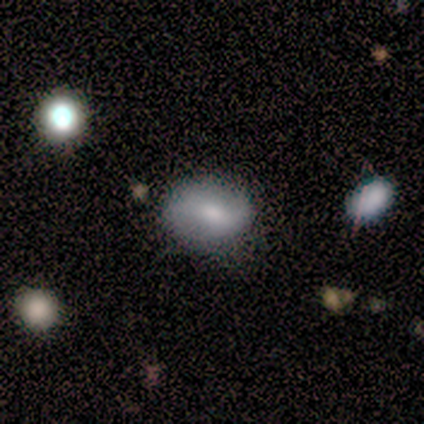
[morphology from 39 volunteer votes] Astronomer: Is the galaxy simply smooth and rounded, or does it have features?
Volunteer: smooth — 64%.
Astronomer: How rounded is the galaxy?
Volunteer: in between — 76%.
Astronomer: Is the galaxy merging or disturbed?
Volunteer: none — 78%.